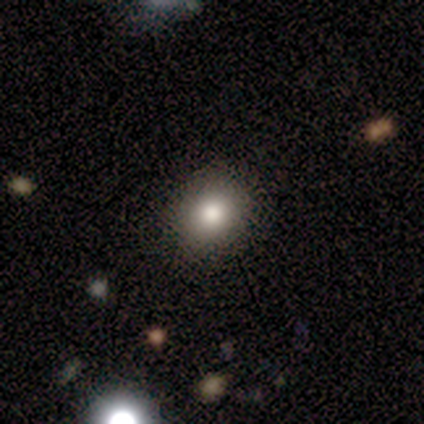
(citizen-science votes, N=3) Morphology: type=smooth (100%); roundness=round (100%); merging=none (67%).